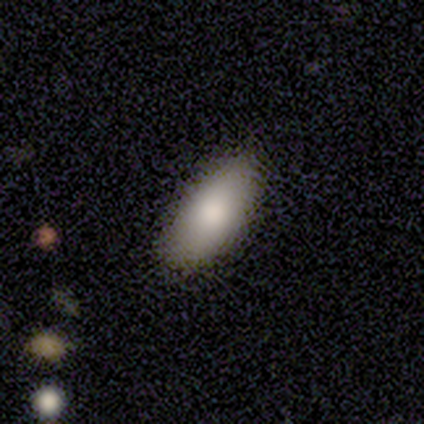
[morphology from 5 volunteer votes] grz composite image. It shows a smooth galaxy with no disk features (100%) that is in between round and cigar-shaped (80%). Merging: none (80%).